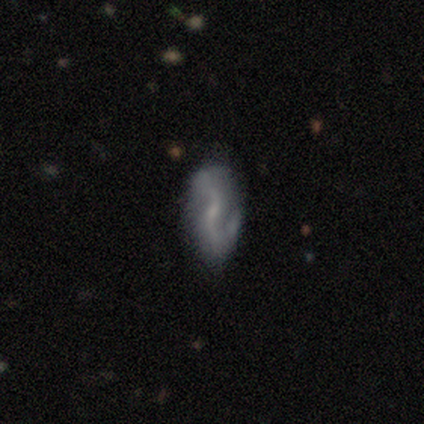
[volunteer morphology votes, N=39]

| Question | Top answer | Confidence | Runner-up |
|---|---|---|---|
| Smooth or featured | featured or disk | 90% | smooth (8%) |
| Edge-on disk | no | 100% | — |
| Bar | weak | 63% | no (37%) |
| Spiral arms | yes | 100% | — |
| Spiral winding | loose | 63% | medium (29%) |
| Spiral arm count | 2 | 89% | 1 (6%) |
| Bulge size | small | 63% | none (23%) |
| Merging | none | 74% | minor disturbance (21%) |